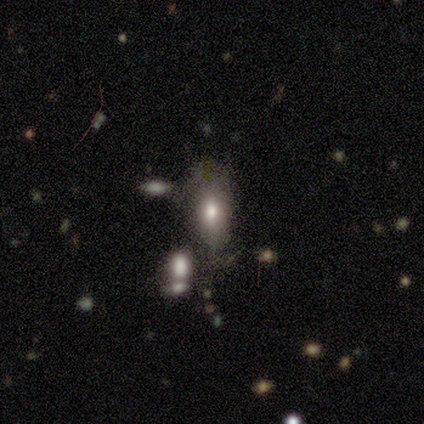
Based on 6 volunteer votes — Morphology: type=smooth (83%); roundness=in between (100%); merging=minor disturbance (60%).